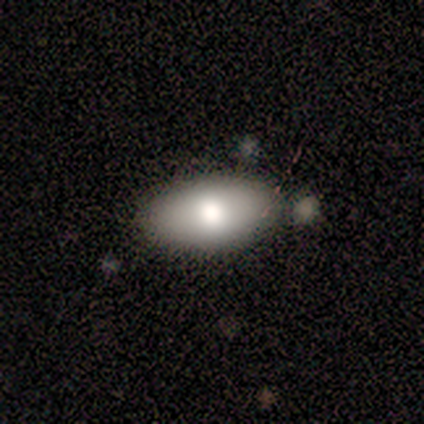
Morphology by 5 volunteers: This appears to be a smooth galaxy with no disk features (40%, tied with featured or disk) that is in between round and cigar-shaped (100%). Merging: none (100%).